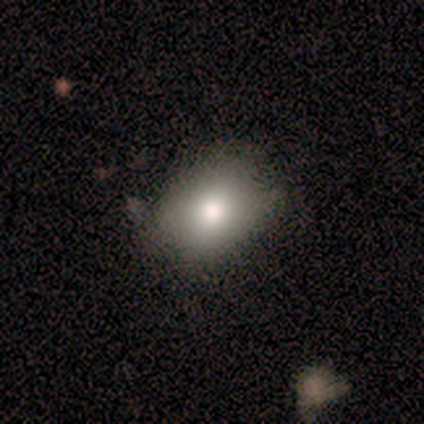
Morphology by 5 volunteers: Smooth or featured?
  - smooth: 80% *
  - featured or disk: 20%
  - star or artifact: 0%
How rounded?
  - in between: 75% *
  - round: 25%
  - cigar-shaped: 0%
Merging?
  - none: 100% *
  - minor disturbance: 0%
  - major disturbance: 0%
  - merger: 0%